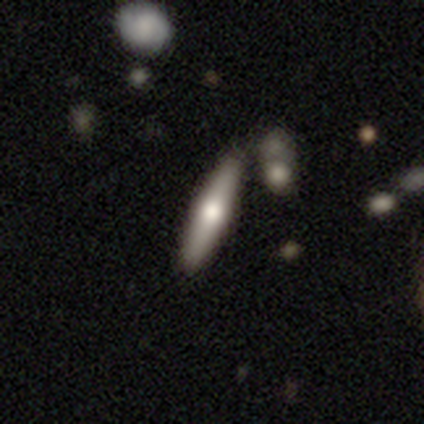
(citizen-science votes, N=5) Smooth or featured? smooth (80%)
How rounded? cigar-shaped (100%)
Merging? none (100%)